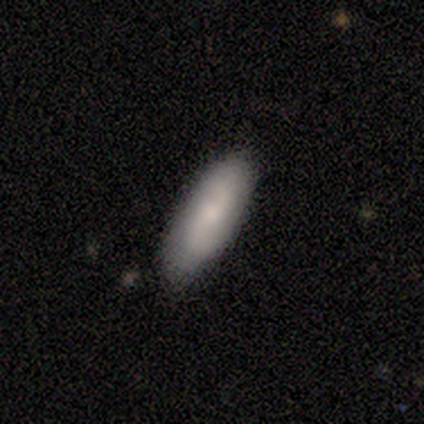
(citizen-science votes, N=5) smooth_or_featured: smooth (p=0.60) [alt: featured or disk p=0.40]
how_rounded: in between (p=1.00)
merging: none (p=1.00)